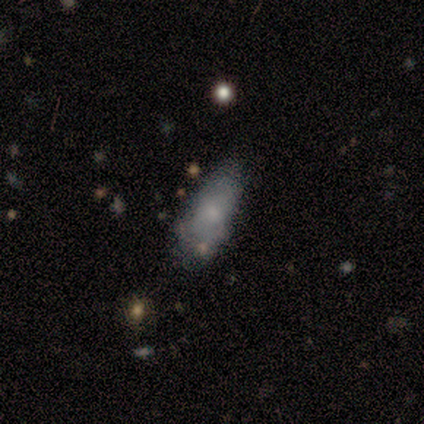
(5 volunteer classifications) Smooth or featured? smooth (60%)
How rounded? cigar-shaped (67%)
Merging? minor disturbance (80%)